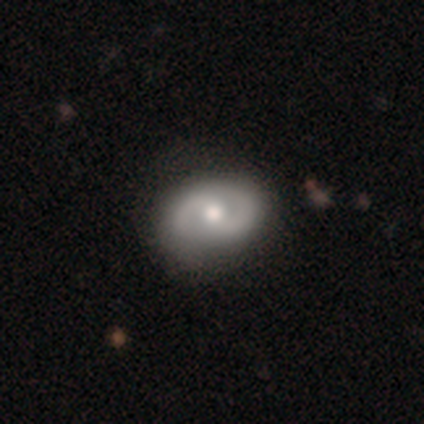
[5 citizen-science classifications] Q: Smooth or featured?
A: featured or disk (80%); runner-up: star or artifact (20%)
Q: Edge-on disk?
A: no (100%)
Q: Bar?
A: no (75%); runner-up: strong (25%)
Q: Spiral arms?
A: yes (75%); runner-up: no (25%)
Q: Spiral winding?
A: tight (33%); tied with: medium (33%); loose (33%)
Q: Spiral arm count?
A: 2 (100%)
Q: Bulge size?
A: moderate (100%)
Q: Merging?
A: none (100%)